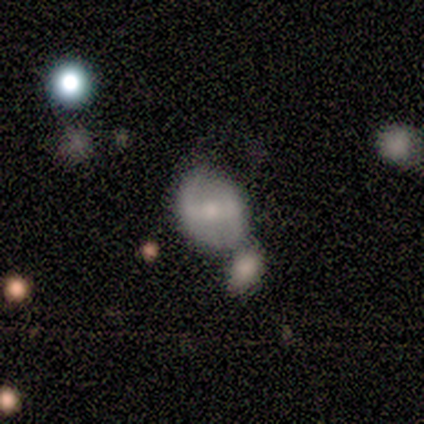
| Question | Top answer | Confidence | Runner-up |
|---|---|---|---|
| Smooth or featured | smooth | 60% | featured or disk (40%) |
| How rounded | round | 67% | in between (33%) |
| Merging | merger | 80% | none (20%) |